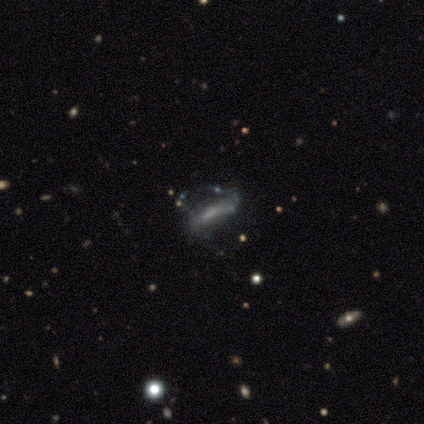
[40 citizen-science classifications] This is possibly a featured or disk galaxy (55%). It is likely not viewed edge-on (73%). Bar: possibly strong (50%). Spiral arm pattern: possibly yes (56%). Spiral arm count: likely 2 (67%). Spiral winding: marginally loose (44%). Central bulge: possibly small (56%). Merging: marginally none (32%).